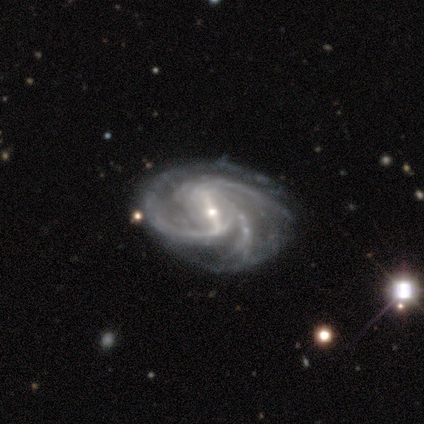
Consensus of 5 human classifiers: Smooth or featured?
  - featured or disk: 100% *
  - smooth: 0%
  - star or artifact: 0%
Edge-on disk?
  - no: 100% *
  - yes: 0%
Bar?
  - weak: 60% *
  - strong: 40%
  - no: 0%
Spiral arms?
  - yes: 100% *
  - no: 0%
Spiral winding?
  - medium: 100% *
  - tight: 0%
  - loose: 0%
Spiral arm count?
  - 3: 80% *
  - more than 4: 20%
  - 1: 0%
  - 2: 0%
  - 4: 0%
  - can't tell: 0%
Bulge size?
  - small: 60% *
  - moderate: 40%
  - dominant: 0%
  - large: 0%
  - none: 0%
Merging?
  - none: 80% *
  - minor disturbance: 20%
  - major disturbance: 0%
  - merger: 0%